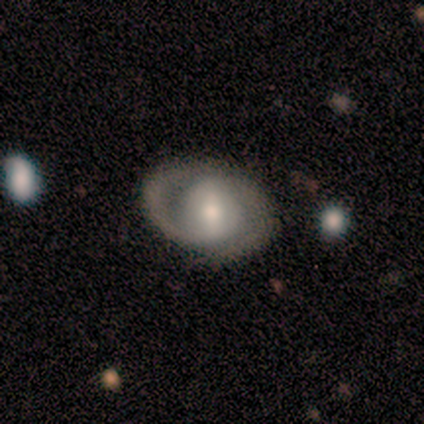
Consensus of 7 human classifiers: Smooth or featured?
  - featured or disk: 100% *
  - smooth: 0%
  - star or artifact: 0%
Edge-on disk?
  - no: 86% *
  - yes: 14%
Bar?
  - weak: 83% *
  - strong: 17%
  - no: 0%
Spiral arms?
  - yes: 100% *
  - no: 0%
Spiral winding?
  - medium: 67% *
  - tight: 33%
  - loose: 0%
Spiral arm count?
  - 2: 100% *
  - 1: 0%
  - 3: 0%
  - 4: 0%
  - more than 4: 0%
  - can't tell: 0%
Bulge size?
  - small: 50% *
  - moderate: 33%
  - large: 17%
  - dominant: 0%
  - none: 0%
Merging?
  - minor disturbance: 57% *
  - none: 43%
  - major disturbance: 0%
  - merger: 0%